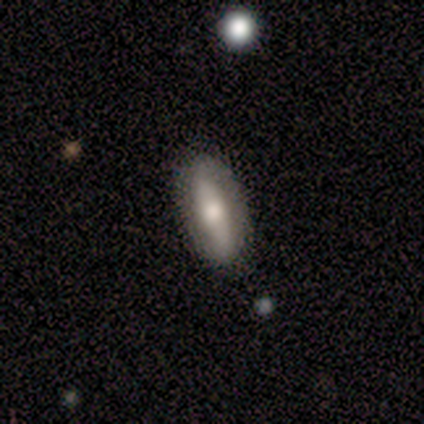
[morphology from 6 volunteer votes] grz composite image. It shows a smooth galaxy with no disk features (50%, tied with featured or disk) that is cigar-shaped (67%). Merging: none (67%).